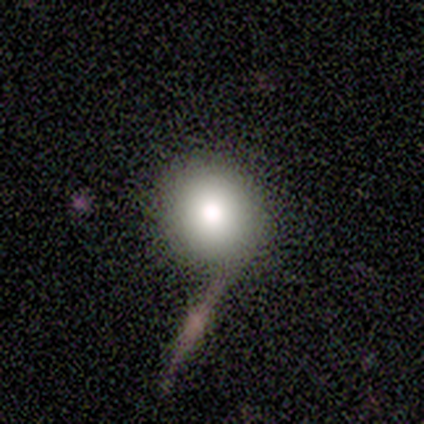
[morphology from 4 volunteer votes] type=smooth (75%); roundness=round (100%); merging=none (100%).